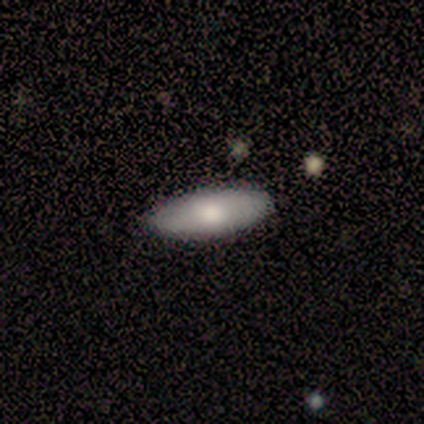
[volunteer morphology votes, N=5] Volunteers were most divided on "how rounded": in between: 50%, round: 25%, cigar-shaped: 25%. More confident: merging — none (100%); smooth or featured — smooth (80%).